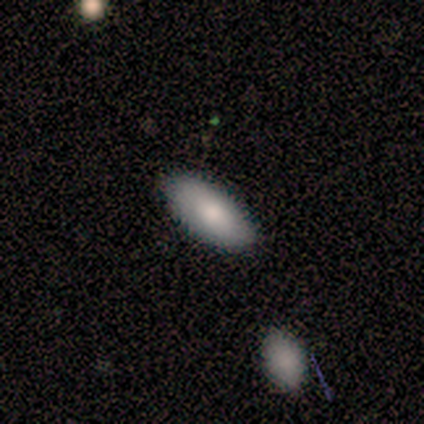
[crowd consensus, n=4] Volunteers were most divided on "how rounded": in between: 75%, cigar-shaped: 25%, round: 0%. More confident: smooth or featured — smooth (100%); merging — none (100%).